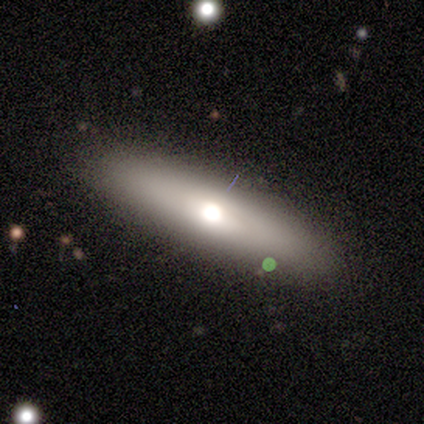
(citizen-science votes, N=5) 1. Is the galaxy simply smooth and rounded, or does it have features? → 60% featured or disk, 40% smooth, 0% star or artifact.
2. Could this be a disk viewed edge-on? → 100% yes, 0% no.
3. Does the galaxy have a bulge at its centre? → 67% rounded, 33% none, 0% boxy.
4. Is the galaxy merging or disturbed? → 100% none, 0% minor disturbance, 0% major disturbance, 0% merger.